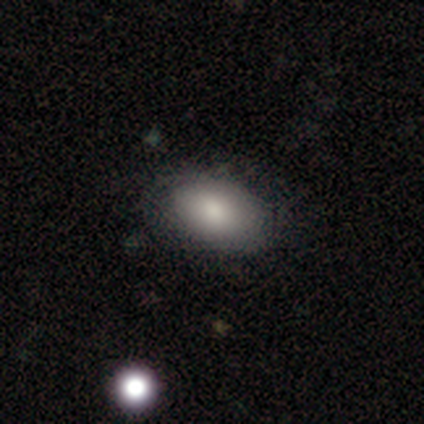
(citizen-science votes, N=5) smooth_or_featured: smooth (p=0.80) [alt: star or artifact p=0.20]
how_rounded: round (p=0.75) [alt: in between p=0.25]
merging: none (p=0.50) [alt: minor disturbance p=0.25]